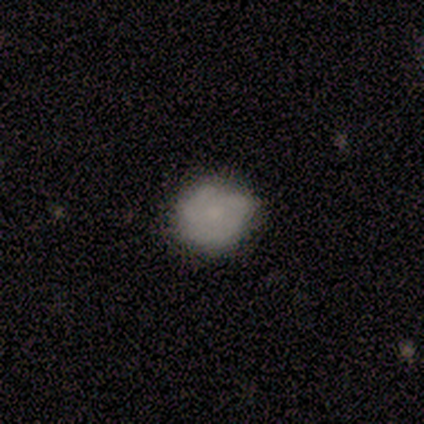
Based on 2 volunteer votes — Overall: smooth (50%, tied with featured or disk). How rounded: in between (100%). Merging: major disturbance (100%).